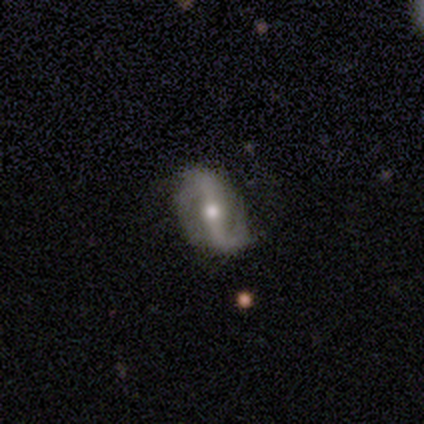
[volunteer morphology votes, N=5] smooth-or-featured: featured or disk: 100% | smooth: 0% | star or artifact: 0%
  disk-edge-on: no: 100% | yes: 0%
    bar: strong: 80% | no: 20% | weak: 0%
    has-spiral-arms: yes: 100% | no: 0%
      spiral-winding: tight: 40% (tied) | medium: 40% (tied) | loose: 20%
      spiral-arm-count: 2: 100% | 1: 0% | 3: 0% | 4: 0% | more than 4: 0% | can't tell: 0%
    bulge-size: moderate: 80% | large: 20% | dominant: 0% | small: 0% | none: 0%
  merging: none: 80% | minor disturbance: 20% | major disturbance: 0% | merger: 0%